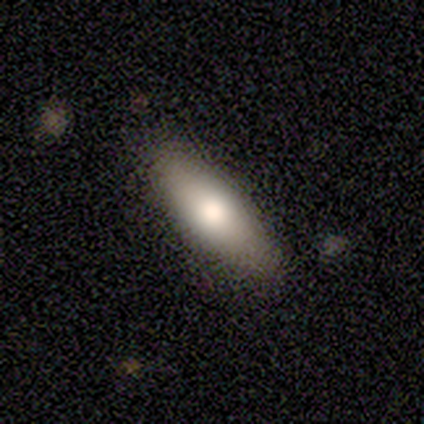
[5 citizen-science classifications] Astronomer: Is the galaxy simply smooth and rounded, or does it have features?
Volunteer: smooth — 100%.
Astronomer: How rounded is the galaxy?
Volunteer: in between — 60% (runner-up: cigar-shaped, 40%).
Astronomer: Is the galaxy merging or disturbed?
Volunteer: none — 80%.